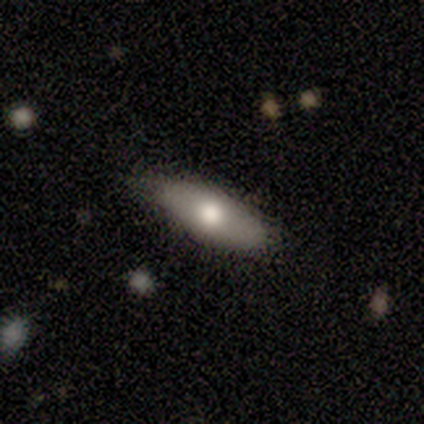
A featured or disk galaxy (60%) viewed edge-on (100%) with a rounded central bulge (100%). Merging: none (80%).